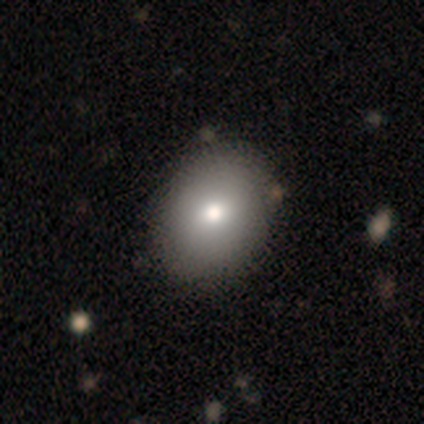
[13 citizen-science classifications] smooth 77%, featured or disk 15%, star or artifact 8%. Down the decision tree: how rounded — in between (60%); merging — none (75%).